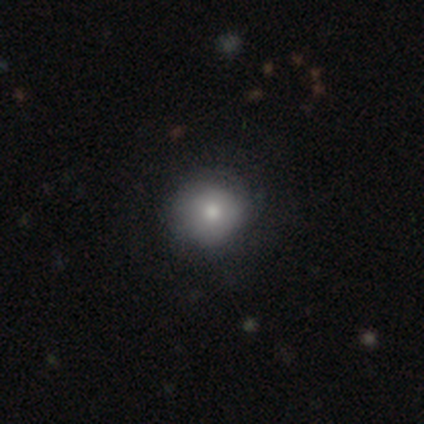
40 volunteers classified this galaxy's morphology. type=smooth (62%); roundness=round (96%); merging=none (43%).